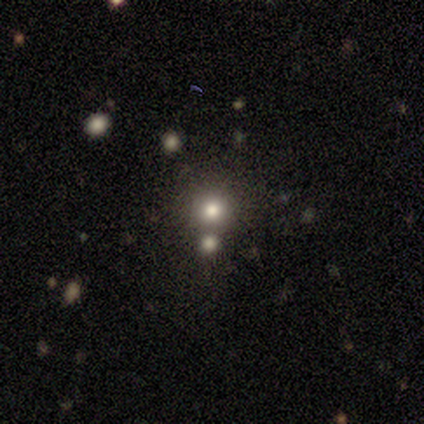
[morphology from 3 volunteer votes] This is likely a smooth galaxy (67%). How rounded: clearly round (100%). Merging: likely merger (67%).